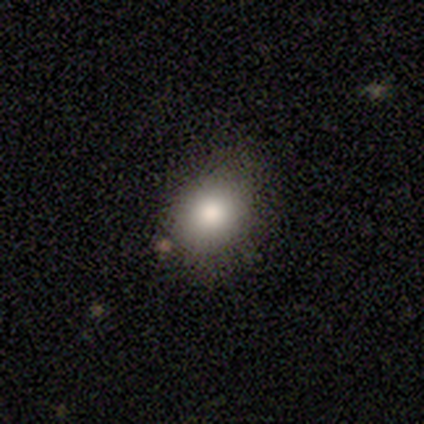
Overall: smooth (60%; star or artifact 40%). How rounded: round (67%; in between 33%). Merging: none (67%; major disturbance 33%).